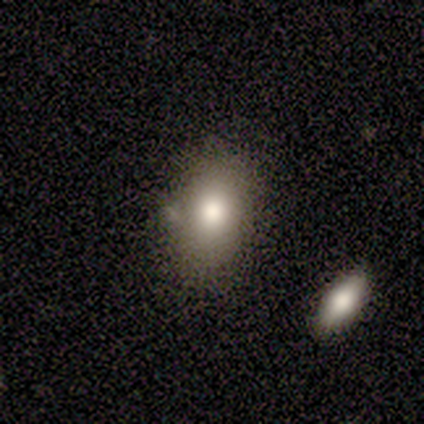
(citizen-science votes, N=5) Smooth or featured: smooth — 80% (star or artifact — 20%)
How rounded: in between — 50% (round — 25%)
Merging: none — 75% (merger — 25%)